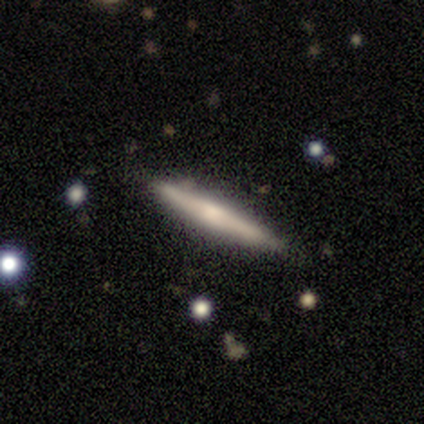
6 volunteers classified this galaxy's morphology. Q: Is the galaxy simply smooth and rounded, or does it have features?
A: smooth — 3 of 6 (50%, tied with featured or disk).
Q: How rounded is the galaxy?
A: cigar-shaped — 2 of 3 (67%).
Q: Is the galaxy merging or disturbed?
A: none — 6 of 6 (100%).